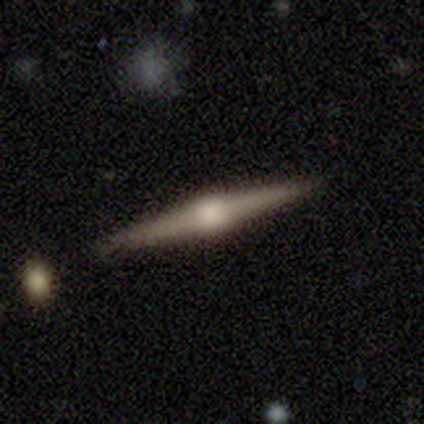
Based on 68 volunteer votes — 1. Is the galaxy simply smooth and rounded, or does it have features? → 84% featured or disk, 12% smooth, 4% star or artifact.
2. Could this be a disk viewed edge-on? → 100% yes, 0% no.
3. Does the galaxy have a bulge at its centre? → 82% rounded, 14% boxy, 4% none.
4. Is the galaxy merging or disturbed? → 86% none, 11% minor disturbance, 3% merger, 0% major disturbance.